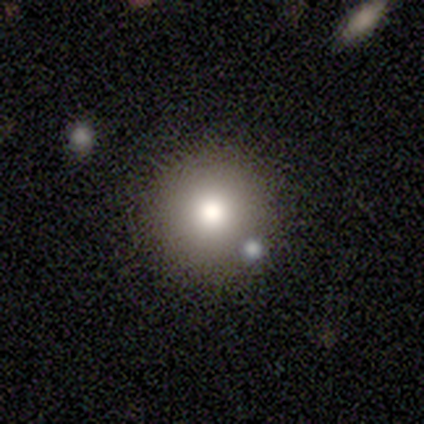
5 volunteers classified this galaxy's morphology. Smooth or featured? 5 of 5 (100%) said smooth. How rounded? 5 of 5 (100%) said round. Merging? 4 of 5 (80%) said none.